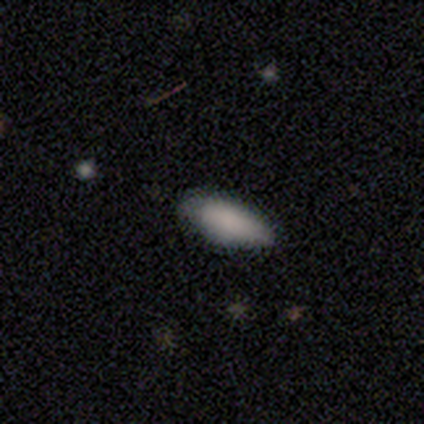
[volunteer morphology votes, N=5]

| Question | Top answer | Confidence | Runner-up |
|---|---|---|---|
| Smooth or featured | smooth | 100% | — |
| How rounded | in between | 100% | — |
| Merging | none | 60% | minor disturbance (40%) |